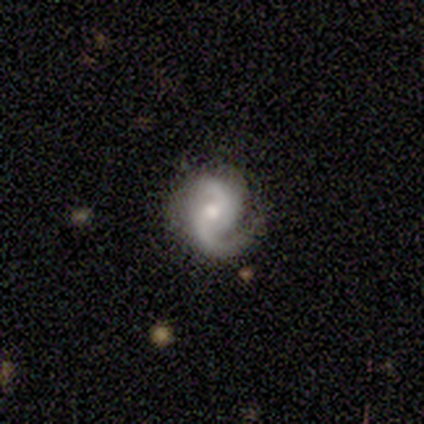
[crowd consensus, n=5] This is clearly a featured or disk galaxy (100%). It is clearly not viewed edge-on (80%). Bar: possibly weak (50%, tied with no). Spiral arm pattern: clearly yes (100%). Spiral arm count: likely 2 (75%). Spiral winding: possibly medium (50%, tied with loose). Central bulge: possibly moderate (50%, tied with small). Merging: likely none (60%).